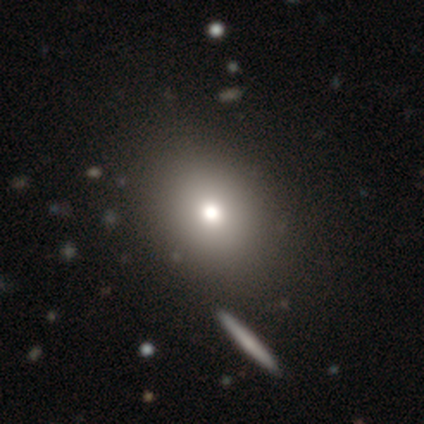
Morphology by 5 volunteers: type=smooth (80%); roundness=round (75%); merging=none (75%).